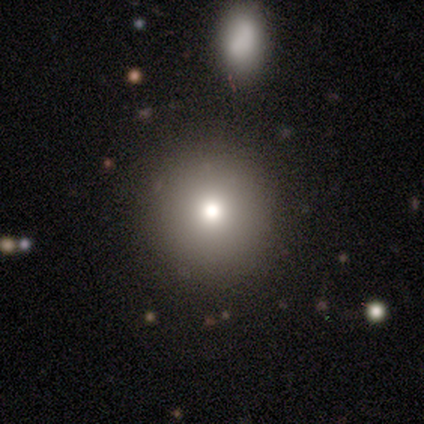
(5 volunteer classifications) Smooth or featured: smooth — 80% (featured or disk — 20%)
How rounded: round — 100%
Merging: none — 100%